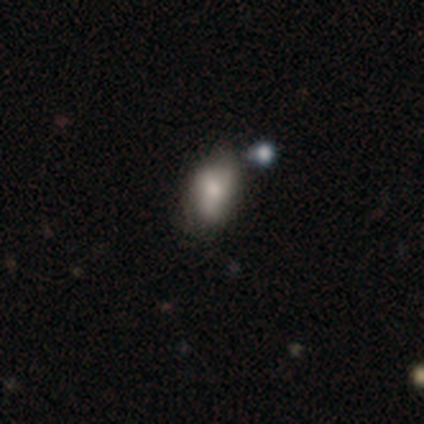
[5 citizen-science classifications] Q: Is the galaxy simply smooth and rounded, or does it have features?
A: smooth — 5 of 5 (100%).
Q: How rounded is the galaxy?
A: in between — 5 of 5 (100%).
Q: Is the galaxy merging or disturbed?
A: none — 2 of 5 (40%).